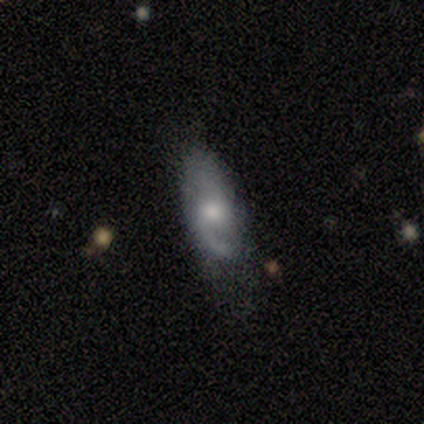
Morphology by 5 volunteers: Overall: featured or disk (100%). Edge-on disk: no (80%). Bar: weak (50%, tied with no). Spiral arms: yes (100%). Spiral arm count: 1 (50%, tied with 2). Spiral winding: loose (75%). Bulge size: moderate (50%, tied with small). Merging: none (60%; minor disturbance 40%).